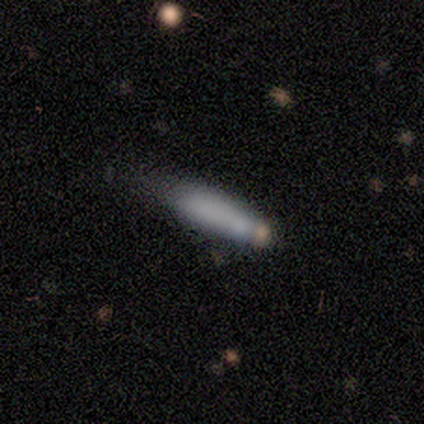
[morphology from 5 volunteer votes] smooth_or_featured: smooth (p=0.80) [alt: featured or disk p=0.20]
how_rounded: cigar-shaped (p=1.00)
merging: minor disturbance (p=0.60) [alt: none p=0.40]